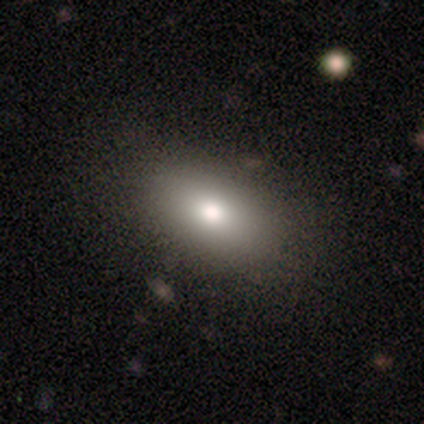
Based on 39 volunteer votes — Smooth or featured? 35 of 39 (90%) said smooth. How rounded? 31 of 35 (89%) said in between. Merging? 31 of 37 (84%) said none.